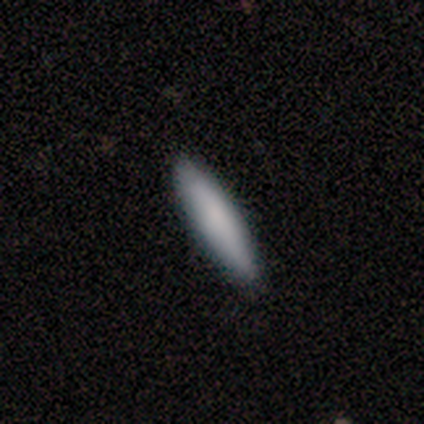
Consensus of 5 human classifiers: Smooth or featured? smooth (80%)
How rounded? cigar-shaped (100%)
Merging? none (80%)